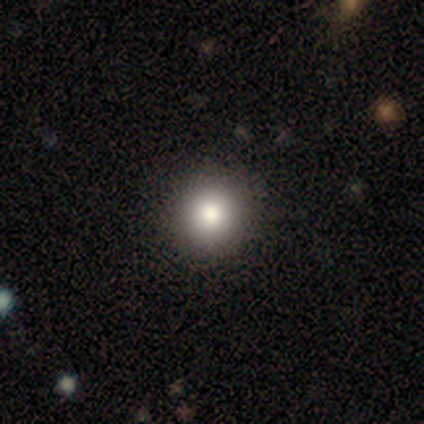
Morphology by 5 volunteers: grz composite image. It shows a smooth galaxy with no disk features (100%) that is round (100%). Merging: none (100%).